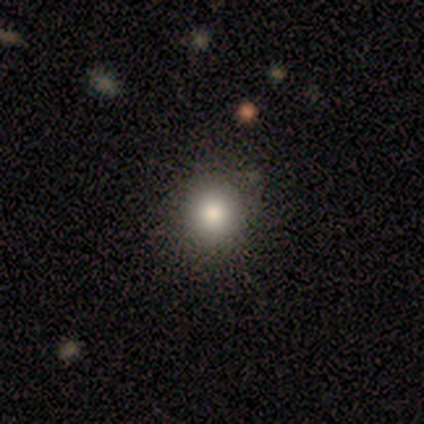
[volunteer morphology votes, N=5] smooth_or_featured: smooth (p=0.60) [alt: star or artifact p=0.40]
how_rounded: round (p=1.00)
merging: none (p=0.33) [tied with: minor disturbance p=0.33, merger p=0.33]